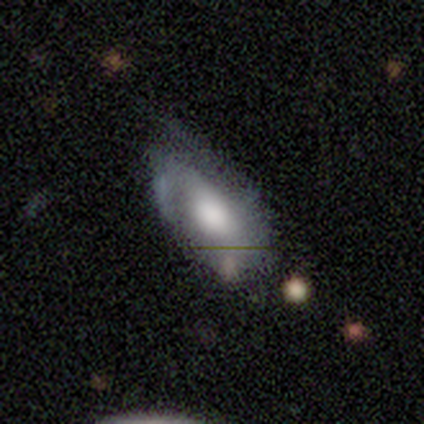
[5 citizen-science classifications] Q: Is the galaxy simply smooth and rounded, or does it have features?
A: featured or disk — 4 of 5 (80%).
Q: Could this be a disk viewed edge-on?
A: no — 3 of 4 (75%).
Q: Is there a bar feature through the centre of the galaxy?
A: no — 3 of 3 (100%).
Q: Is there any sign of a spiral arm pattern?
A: yes — 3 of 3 (100%).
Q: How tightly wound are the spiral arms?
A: loose — 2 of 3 (67%).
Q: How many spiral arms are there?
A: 2 — 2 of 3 (67%).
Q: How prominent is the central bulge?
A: large — 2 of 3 (67%).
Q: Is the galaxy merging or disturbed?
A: none — 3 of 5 (60%).